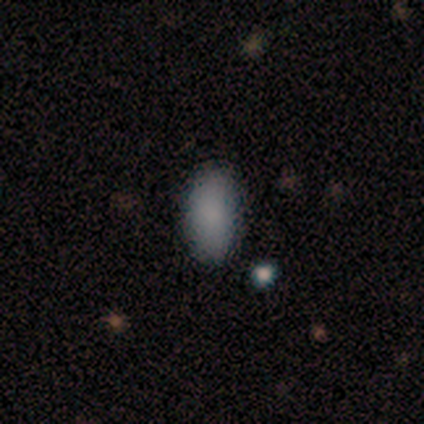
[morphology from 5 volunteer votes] smooth-or-featured: smooth: 100% | featured or disk: 0% | star or artifact: 0%
  how-rounded: in between: 100% | round: 0% | cigar-shaped: 0%
  merging: none: 100% | minor disturbance: 0% | major disturbance: 0% | merger: 0%